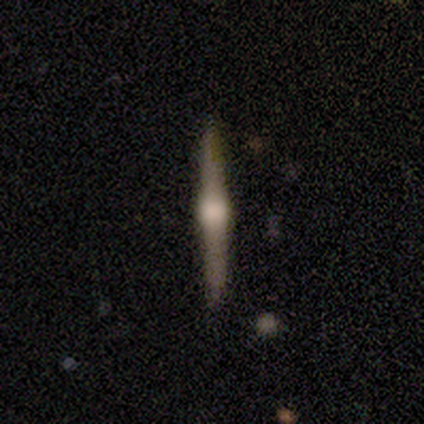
A featured or disk galaxy (80%) viewed edge-on (100%) with a rounded central bulge (100%). Merging: none (100%).